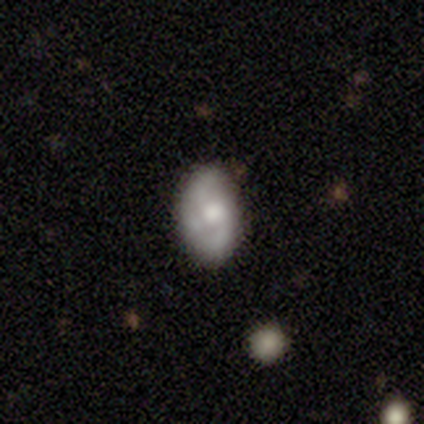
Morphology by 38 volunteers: A smooth galaxy with no disk features (50%) that is in between round and cigar-shaped (84%).

Vote fractions:
- Smooth or featured? smooth: 50% / featured or disk: 29% / star or artifact: 21%
- How rounded? in between: 84% / round: 11% / cigar-shaped: 5%
- Merging? none: 67% / minor disturbance: 23% / major disturbance: 7% / merger: 3%